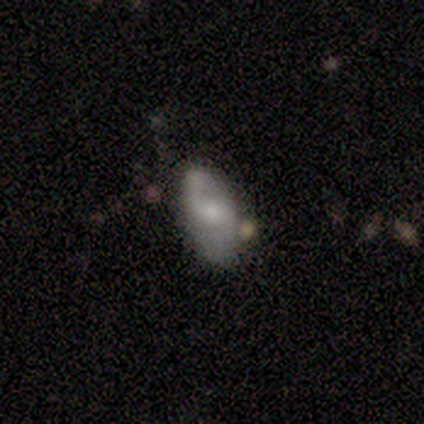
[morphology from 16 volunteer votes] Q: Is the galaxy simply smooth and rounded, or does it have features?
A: smooth — 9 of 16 (56%).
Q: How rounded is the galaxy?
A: in between — 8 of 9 (89%).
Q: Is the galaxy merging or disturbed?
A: none — 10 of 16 (62%).